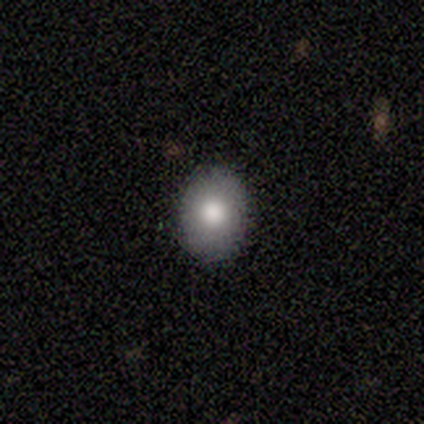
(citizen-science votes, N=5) Smooth or featured?
  - smooth: 100% *
  - featured or disk: 0%
  - star or artifact: 0%
How rounded?
  - in between: 60% *
  - round: 40%
  - cigar-shaped: 0%
Merging?
  - none: 100% *
  - minor disturbance: 0%
  - major disturbance: 0%
  - merger: 0%